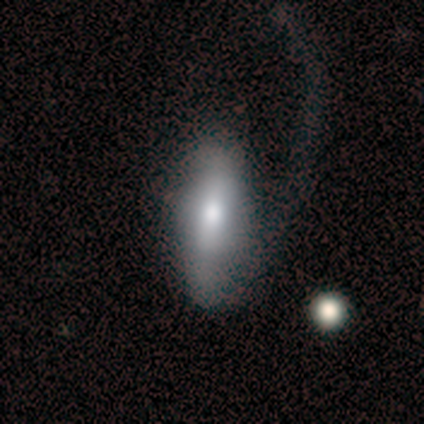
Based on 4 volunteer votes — Smooth or featured?
  - smooth: 75% *
  - featured or disk: 25%
  - star or artifact: 0%
How rounded?
  - in between: 67% *
  - cigar-shaped: 33%
  - round: 0%
Merging?
  - major disturbance: 75% *
  - none: 25%
  - minor disturbance: 0%
  - merger: 0%